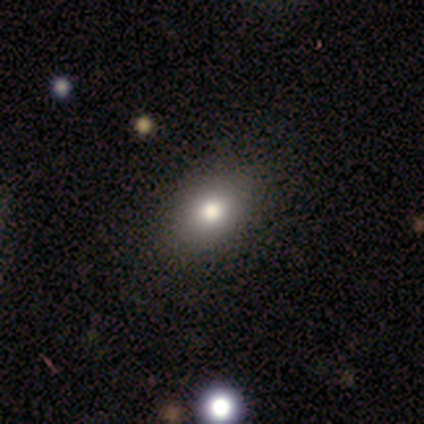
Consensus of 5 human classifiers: Volunteers were most divided on "merging": none: 50%, minor disturbance: 25%, merger: 25%, major disturbance: 0%. More confident: how rounded — round (67%); smooth or featured — smooth (60%).